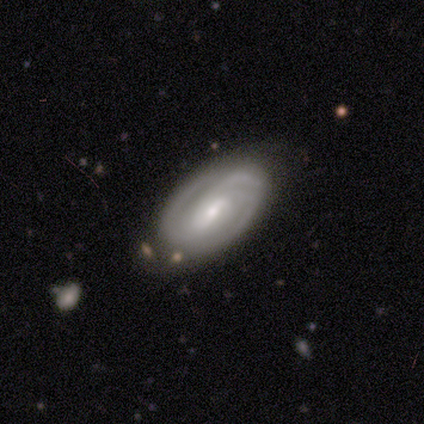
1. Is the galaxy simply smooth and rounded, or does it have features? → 92% featured or disk, 8% smooth, 0% star or artifact.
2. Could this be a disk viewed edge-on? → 95% no, 5% yes.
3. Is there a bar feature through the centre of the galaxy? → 71% weak, 14% strong, 14% no.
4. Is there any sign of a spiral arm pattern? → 97% yes, 3% no.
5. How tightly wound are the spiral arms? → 53% tight, 35% medium, 12% loose.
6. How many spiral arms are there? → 50% 2, 32% 3, 12% can't tell, 6% 4, 0% 1, 0% more than 4.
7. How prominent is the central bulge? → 63% small, 34% moderate, 3% dominant, 0% large, 0% none.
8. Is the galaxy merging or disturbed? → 75% none, 18% minor disturbance, 5% major disturbance, 2% merger.